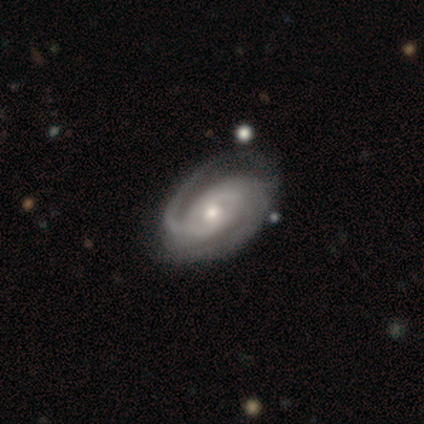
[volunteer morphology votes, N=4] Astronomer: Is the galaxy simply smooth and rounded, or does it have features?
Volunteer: featured or disk — 100%.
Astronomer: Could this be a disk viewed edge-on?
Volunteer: no — 100%.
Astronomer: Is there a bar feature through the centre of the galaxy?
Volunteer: no — 100%.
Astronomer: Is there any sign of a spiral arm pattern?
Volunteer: yes — 100%.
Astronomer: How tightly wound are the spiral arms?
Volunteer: tight — 50%, tied with loose at 50%.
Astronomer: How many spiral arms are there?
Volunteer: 2 — 100%.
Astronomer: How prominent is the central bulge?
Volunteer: moderate — 75%.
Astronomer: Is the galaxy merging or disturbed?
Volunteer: none — 75%.